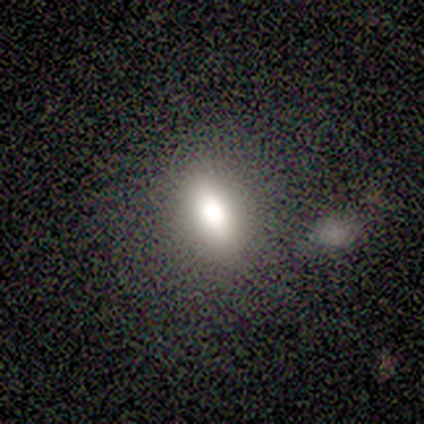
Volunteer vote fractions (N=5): A smooth galaxy with no disk features (80%) that is in between round and cigar-shaped (75%).

Vote fractions:
- Smooth or featured? smooth: 80% / featured or disk: 20% / star or artifact: 0%
- How rounded? in between: 75% / cigar-shaped: 25% / round: 0%
- Merging? none: 60% / minor disturbance: 20% / merger: 20% / major disturbance: 0%